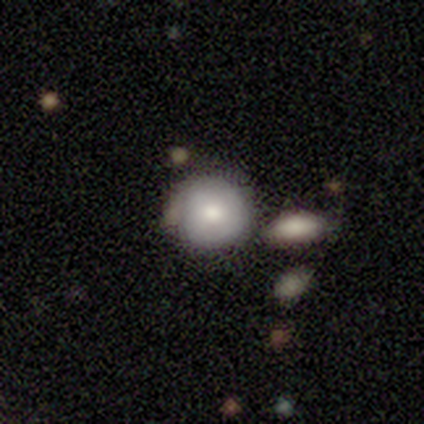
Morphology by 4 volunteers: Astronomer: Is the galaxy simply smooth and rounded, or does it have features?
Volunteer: smooth — 50%, tied with featured or disk at 50%.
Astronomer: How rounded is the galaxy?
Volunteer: round — 100%.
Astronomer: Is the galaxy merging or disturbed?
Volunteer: none — 75%.